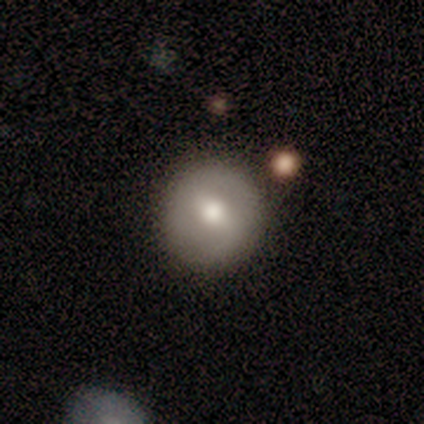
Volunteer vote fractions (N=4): Q: Smooth or featured?
A: featured or disk (75%); runner-up: smooth (25%)
Q: Edge-on disk?
A: no (100%)
Q: Bar?
A: weak (67%); runner-up: no (33%)
Q: Spiral arms?
A: no (100%)
Q: Bulge size?
A: moderate (67%); runner-up: large (33%)
Q: Merging?
A: none (75%); runner-up: merger (25%)